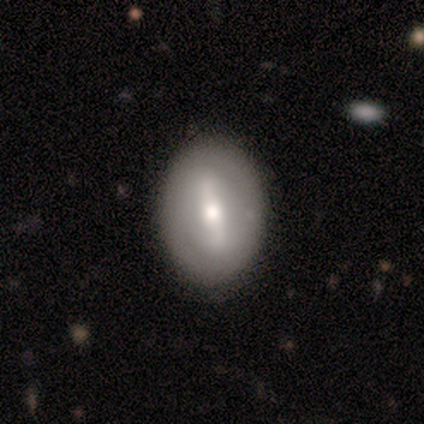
Smooth or featured? 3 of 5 (60%) said smooth. How rounded? 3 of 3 (100%) said in between. Merging? 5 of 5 (100%) said none.